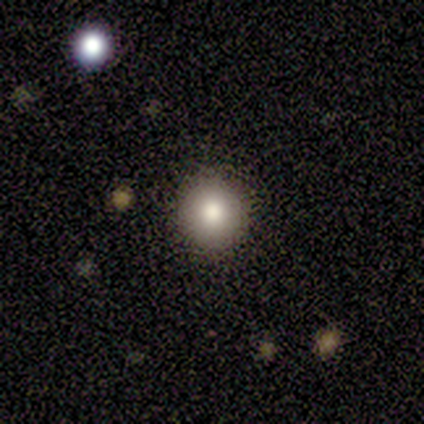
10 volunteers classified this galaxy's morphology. Volunteers were most divided on "smooth or featured": smooth: 50%, featured or disk: 30%, star or artifact: 20%. More confident: how rounded — round (100%); merging — none (100%).